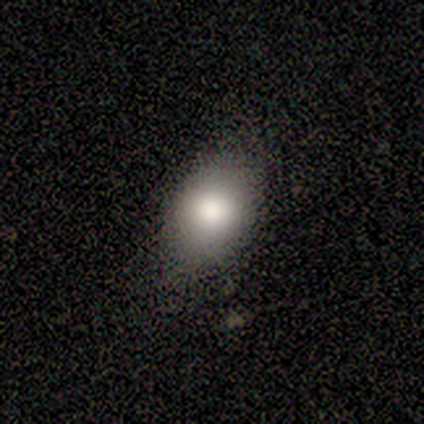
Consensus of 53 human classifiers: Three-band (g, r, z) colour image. It shows a smooth galaxy with no disk features (85%) that is in between round and cigar-shaped (89%). Merging: none (84%).